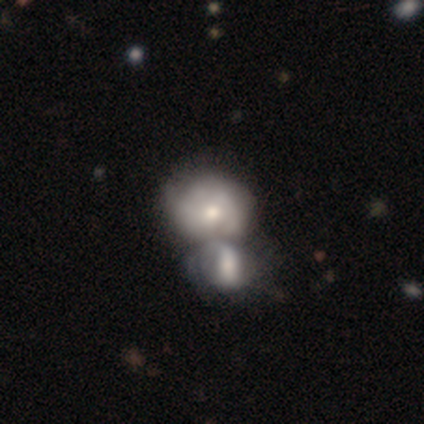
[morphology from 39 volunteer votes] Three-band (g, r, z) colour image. It shows a smooth galaxy with no disk features (54%) that is round (62%). Merging: merger (67%).